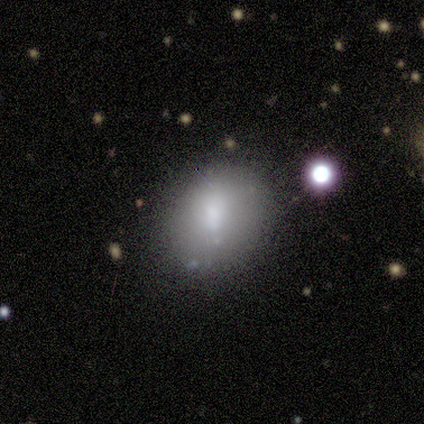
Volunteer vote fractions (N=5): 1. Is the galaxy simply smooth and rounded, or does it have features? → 80% smooth, 20% featured or disk, 0% star or artifact.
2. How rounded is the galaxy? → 75% in between, 25% round, 0% cigar-shaped.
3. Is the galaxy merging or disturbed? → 100% none, 0% minor disturbance, 0% major disturbance, 0% merger.